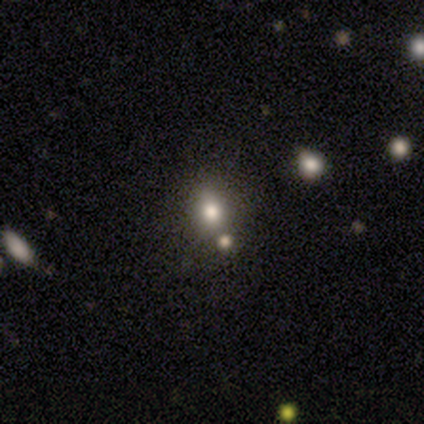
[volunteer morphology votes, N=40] smooth 78%, star or artifact 18%, featured or disk 5%. Down the decision tree: how rounded — round (55%); merging — none (73%).